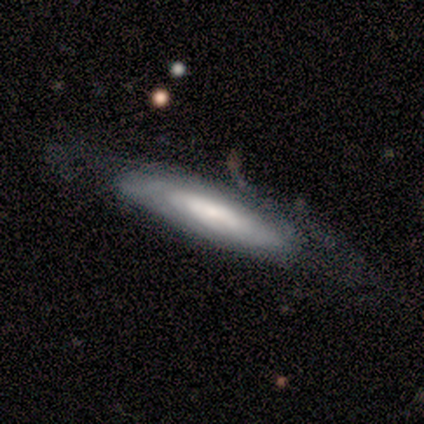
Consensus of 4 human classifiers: smooth-or-featured: featured or disk: 50% | smooth: 25% | star or artifact: 25%
  disk-edge-on: no: 100% | yes: 0%
    bar: strong: 50% (tied) | weak: 50% (tied) | no: 0%
    has-spiral-arms: yes: 50% (tied) | no: 50% (tied)
      spiral-winding: tight: 100% | medium: 0% | loose: 0%
      spiral-arm-count: can't tell: 100% | 1: 0% | 2: 0% | 3: 0% | 4: 0% | more than 4: 0%
    bulge-size: moderate: 50% (tied) | small: 50% (tied) | dominant: 0% | large: 0% | none: 0%
  merging: none: 67% | minor disturbance: 33% | major disturbance: 0% | merger: 0%